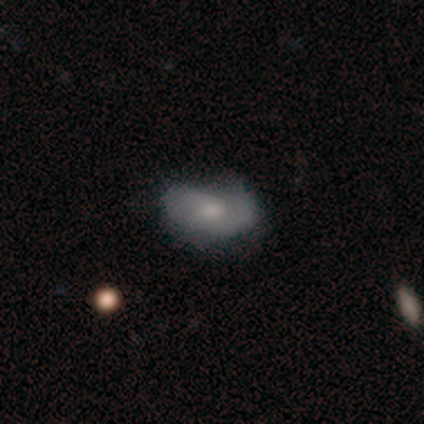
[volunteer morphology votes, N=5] Smooth or featured? 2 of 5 (40%, tied with featured or disk) said smooth. How rounded? 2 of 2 (100%) said in between. Merging? 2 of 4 (50%) said none.